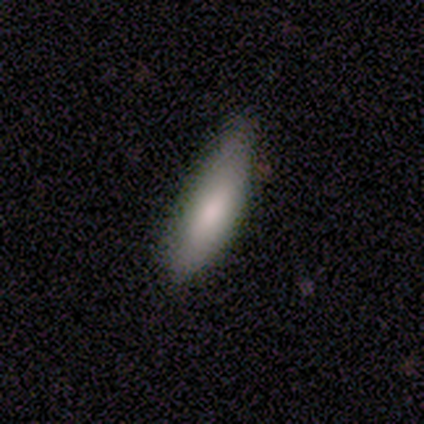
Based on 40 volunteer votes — Overall: smooth (70%). How rounded: cigar-shaped (64%; in between 36%). Merging: minor disturbance (53%; none 42%).